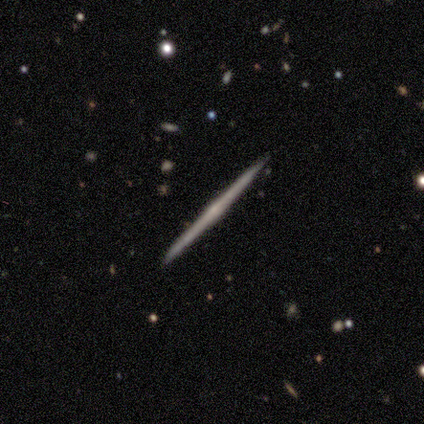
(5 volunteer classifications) smooth-or-featured: featured or disk: 60% | smooth: 40% | star or artifact: 0%
  disk-edge-on: yes: 100% | no: 0%
    edge-on-bulge: none: 100% | boxy: 0% | rounded: 0%
  merging: none: 100% | minor disturbance: 0% | major disturbance: 0% | merger: 0%